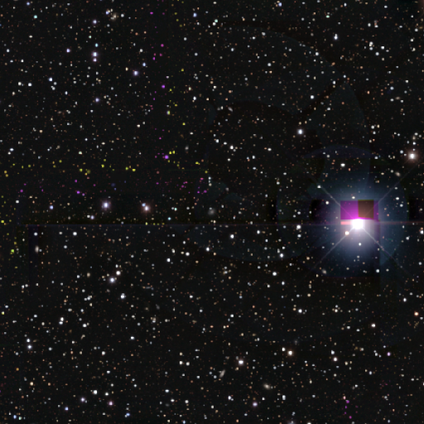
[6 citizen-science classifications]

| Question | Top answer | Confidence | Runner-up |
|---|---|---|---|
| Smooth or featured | star or artifact | 100% | — |